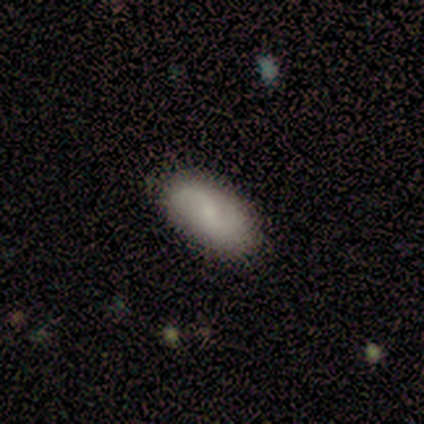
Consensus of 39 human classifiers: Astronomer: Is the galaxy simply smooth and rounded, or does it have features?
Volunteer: smooth — 77%.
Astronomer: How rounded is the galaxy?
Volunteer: in between — 87%.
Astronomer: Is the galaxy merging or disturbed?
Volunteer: none — 82%.